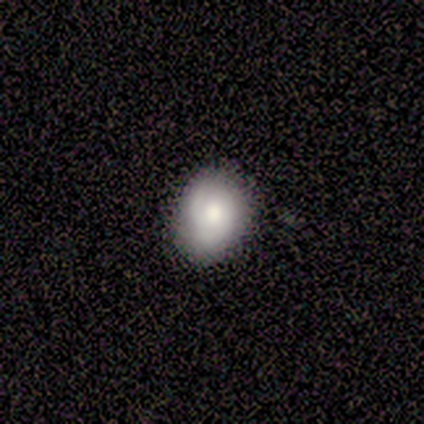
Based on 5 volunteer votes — Smooth or featured? featured or disk (60%)
Edge-on disk? no (100%)
Bar? no (67%)
Spiral arms? yes (67%)
Spiral winding? tight (100%)
Spiral arm count? 2 (100%)
Bulge size? moderate (67%)
Merging? none (80%)